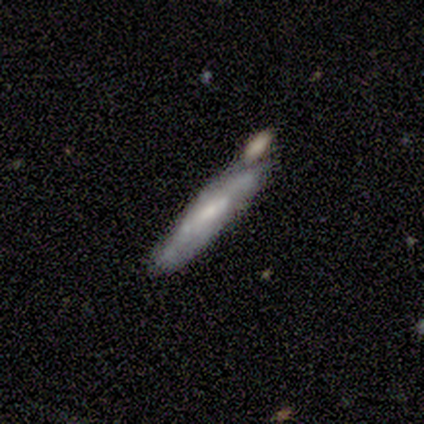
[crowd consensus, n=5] Volunteers were most divided on "merging" (2-way tie): none: 40%, merger: 40%, minor disturbance: 20%, major disturbance: 0%. More confident: smooth or featured — featured or disk (80%); edge-on disk — yes (75%); edge-on bulge — none (67%).